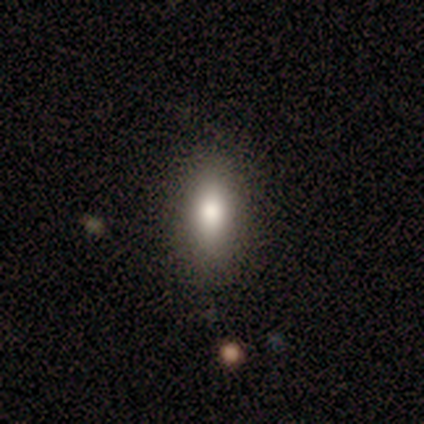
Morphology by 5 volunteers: This appears to be a smooth galaxy with no disk features (100%) that is in between round and cigar-shaped (60%). Merging: none (80%).